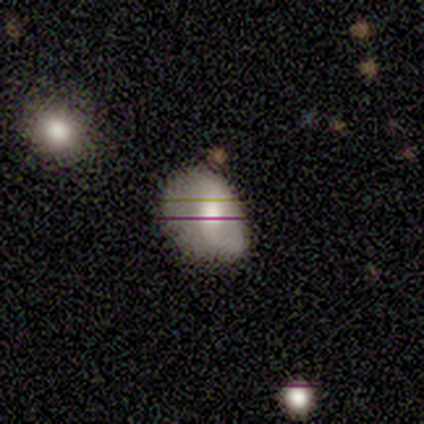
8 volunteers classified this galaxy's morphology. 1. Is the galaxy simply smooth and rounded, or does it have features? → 75% smooth, 12% featured or disk, 12% star or artifact.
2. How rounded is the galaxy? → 67% in between, 33% round, 0% cigar-shaped.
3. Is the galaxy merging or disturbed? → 57% none, 29% minor disturbance, 14% major disturbance, 0% merger.